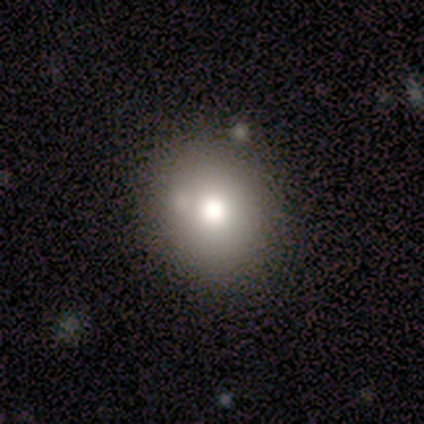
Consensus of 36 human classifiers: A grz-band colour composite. It shows a smooth galaxy with no disk features (61%) that is round (82%). Merging: none (68%).